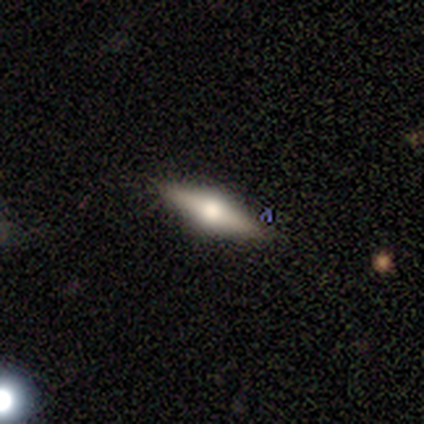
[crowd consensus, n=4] smooth_or_featured: featured or disk (p=0.75) [alt: smooth p=0.25]
disk_edge_on: yes (p=1.00)
edge_on_bulge: rounded (p=1.00)
merging: none (p=1.00)